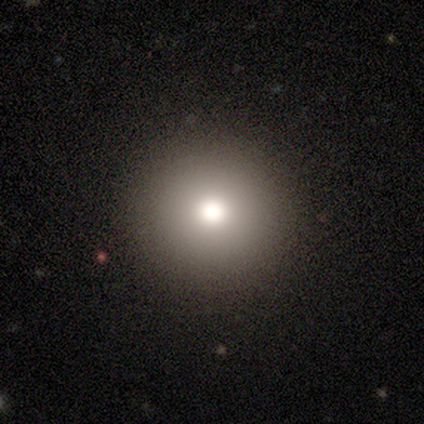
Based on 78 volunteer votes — Smooth or featured? smooth (74%)
How rounded? round (98%)
Merging? none (50%)